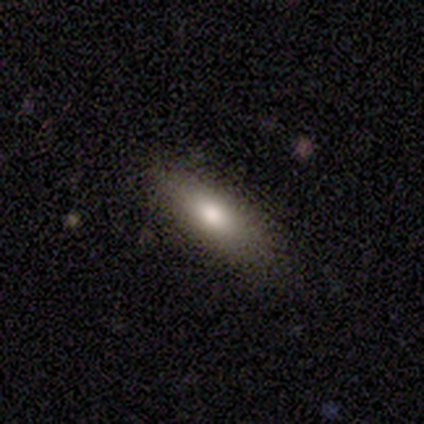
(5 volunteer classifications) Smooth or featured? smooth (100%)
How rounded? cigar-shaped (80%)
Merging? none (100%)